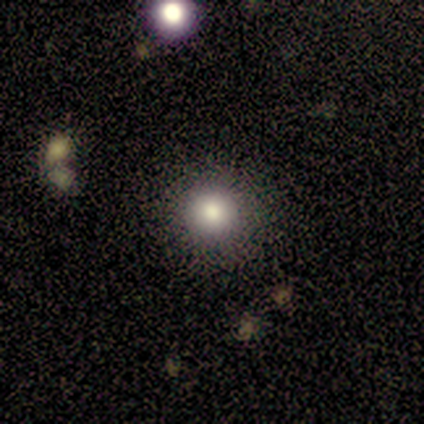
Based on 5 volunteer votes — smooth 100%, featured or disk 0%, star or artifact 0%. Down the decision tree: how rounded — round (100%); merging — none (80%).